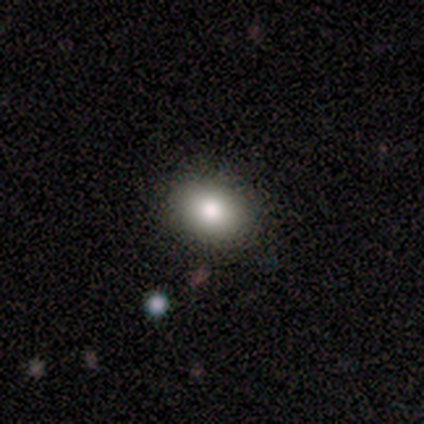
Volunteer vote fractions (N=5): smooth_or_featured: smooth (p=1.00)
how_rounded: in between (p=0.80) [alt: round p=0.20]
merging: none (p=1.00)